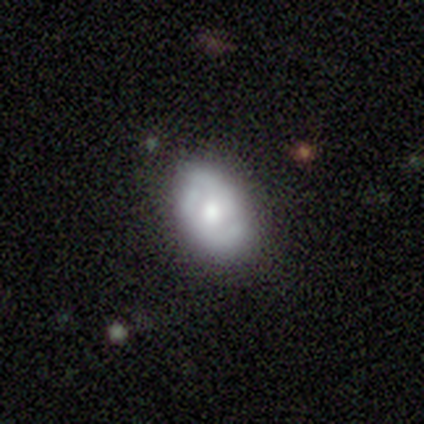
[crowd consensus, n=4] Morphology: type=smooth (75%); roundness=round (67%); merging=none (100%).